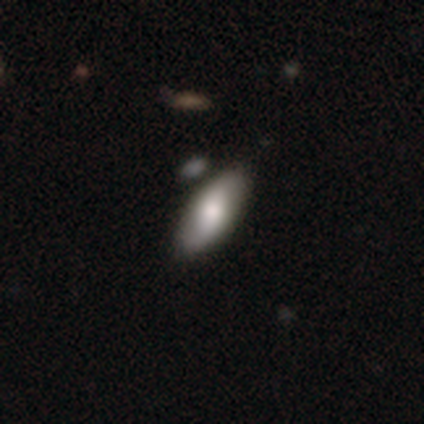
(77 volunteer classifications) Smooth or featured? smooth (79%)
How rounded? in between (90%)
Merging? none (43%)